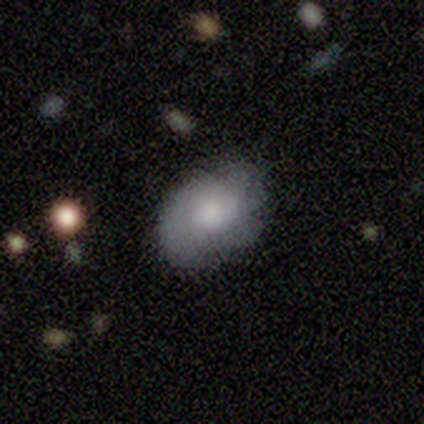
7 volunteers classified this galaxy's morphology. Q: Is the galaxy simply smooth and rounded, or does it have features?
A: smooth — 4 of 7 (57%).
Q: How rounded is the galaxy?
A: in between — 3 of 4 (75%).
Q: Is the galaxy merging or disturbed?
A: none — 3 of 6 (50%).